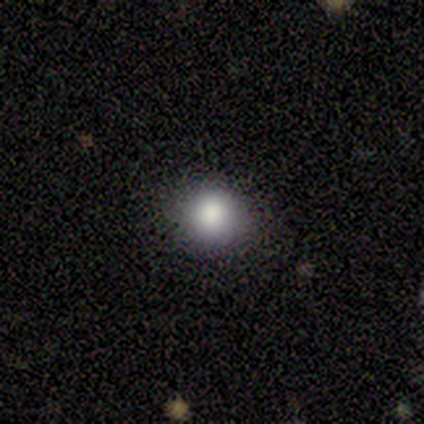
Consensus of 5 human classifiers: Volunteers were most divided on "smooth or featured" (2-way tie): featured or disk: 40%, star or artifact: 40%, smooth: 20%; "bulge size" (2-way tie): dominant: 50%, large: 50%, moderate: 0%, small: 0%, none: 0%. More confident: edge-on disk — no (100%); bar — no (100%); spiral arms — no (100%); merging — none (100%).